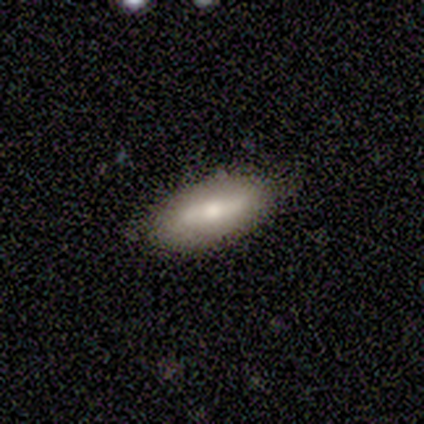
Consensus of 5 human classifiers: This appears to be a featured or disk galaxy (80%) with a strong bar (50%), 2 (100%) medium (67%) spiral arms (75%) and a moderate central bulge (50%, tied with small). Merging: none (100%).